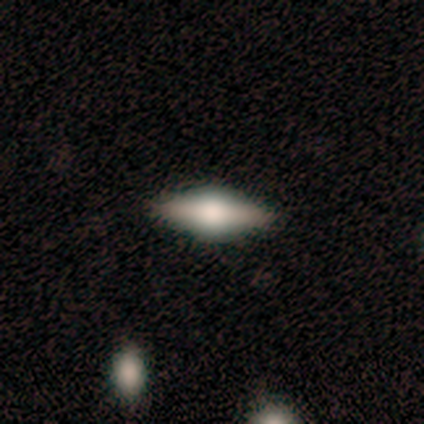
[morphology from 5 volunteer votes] smooth 100%, featured or disk 0%, star or artifact 0%. Down the decision tree: how rounded — in between (100%); merging — none (100%).